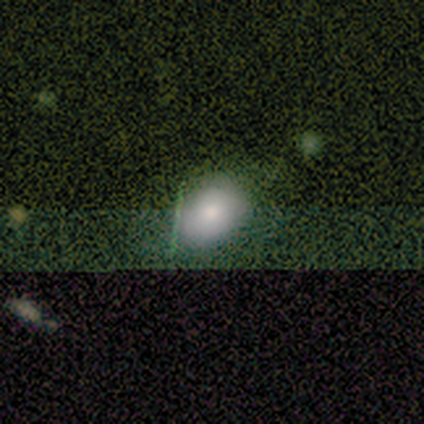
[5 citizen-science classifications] Smooth or featured?
  - smooth: 100% *
  - featured or disk: 0%
  - star or artifact: 0%
How rounded?
  - in between: 80% *
  - round: 20%
  - cigar-shaped: 0%
Merging?
  - none: 60% *
  - minor disturbance: 20%
  - major disturbance: 20%
  - merger: 0%